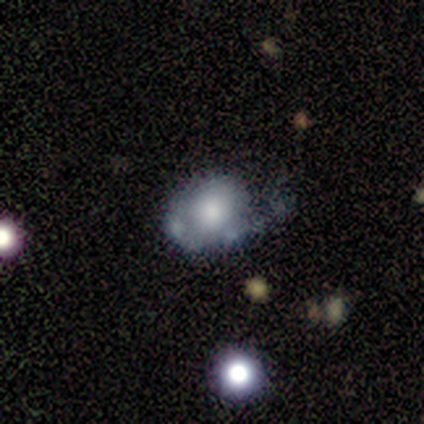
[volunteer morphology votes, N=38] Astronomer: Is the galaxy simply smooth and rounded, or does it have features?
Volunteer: featured or disk — 50% (runner-up: smooth, 39%).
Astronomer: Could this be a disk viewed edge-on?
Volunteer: no — 100%.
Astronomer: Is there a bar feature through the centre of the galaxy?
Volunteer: no — 89%.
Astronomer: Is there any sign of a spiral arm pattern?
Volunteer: no — 84%.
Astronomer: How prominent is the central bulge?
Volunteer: moderate — 42% (runner-up: large, 37%).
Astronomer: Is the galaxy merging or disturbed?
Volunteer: major disturbance — 38% (runner-up: none, 29%).